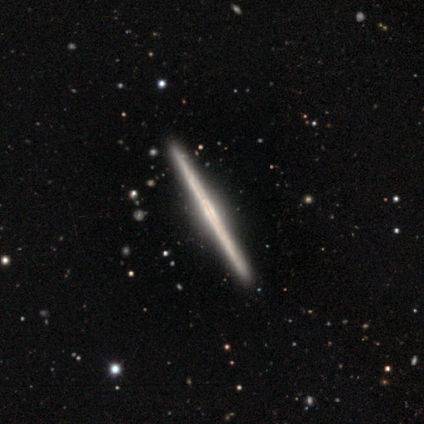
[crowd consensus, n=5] Smooth or featured?
  - featured or disk: 100% *
  - smooth: 0%
  - star or artifact: 0%
Edge-on disk?
  - yes: 100% *
  - no: 0%
Edge-on bulge?
  - none: 40% * (tied)
  - rounded: 40% * (tied)
  - boxy: 20%
Merging?
  - none: 100% *
  - minor disturbance: 0%
  - major disturbance: 0%
  - merger: 0%